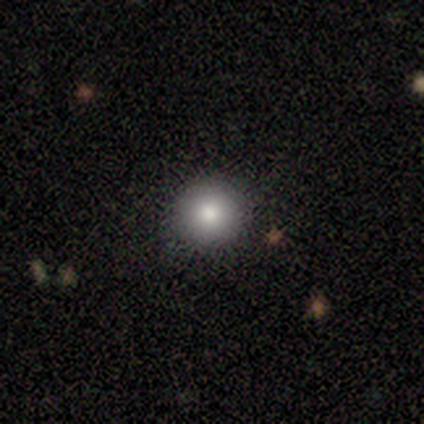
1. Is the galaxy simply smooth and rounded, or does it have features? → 100% smooth, 0% featured or disk, 0% star or artifact.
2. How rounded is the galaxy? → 80% round, 20% in between, 0% cigar-shaped.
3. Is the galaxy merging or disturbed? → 100% none, 0% minor disturbance, 0% major disturbance, 0% merger.